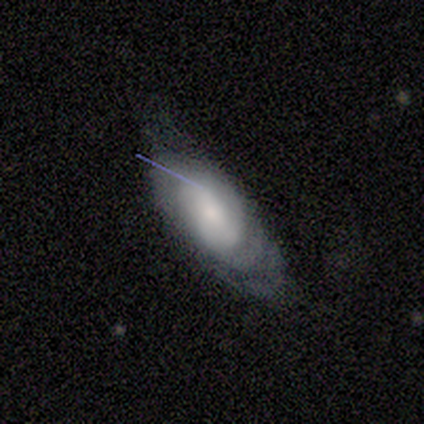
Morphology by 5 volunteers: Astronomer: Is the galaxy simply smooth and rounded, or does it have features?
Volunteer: featured or disk — 60% (runner-up: smooth, 40%).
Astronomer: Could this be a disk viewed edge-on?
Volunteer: no — 100%.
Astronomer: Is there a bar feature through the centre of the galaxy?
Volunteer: no — 67%.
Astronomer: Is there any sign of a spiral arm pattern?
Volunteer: no — 67%.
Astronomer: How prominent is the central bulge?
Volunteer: small — 67%.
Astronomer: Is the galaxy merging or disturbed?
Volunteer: minor disturbance — 80%.